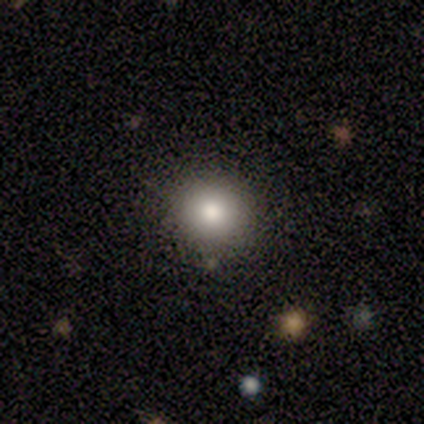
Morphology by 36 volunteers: A smooth galaxy with no disk features (75%) that is round (93%). Merging: none (76%).